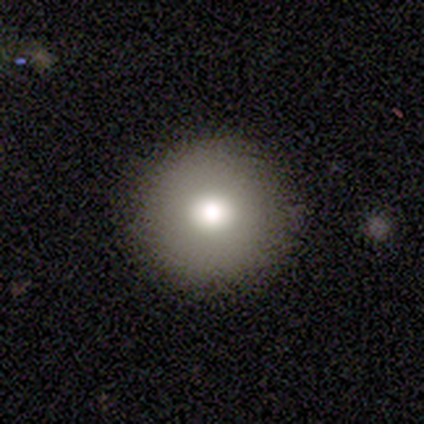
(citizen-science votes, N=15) Smooth or featured?
  - smooth: 87% *
  - star or artifact: 13%
  - featured or disk: 0%
How rounded?
  - round: 100% *
  - in between: 0%
  - cigar-shaped: 0%
Merging?
  - none: 92% *
  - major disturbance: 8%
  - minor disturbance: 0%
  - merger: 0%